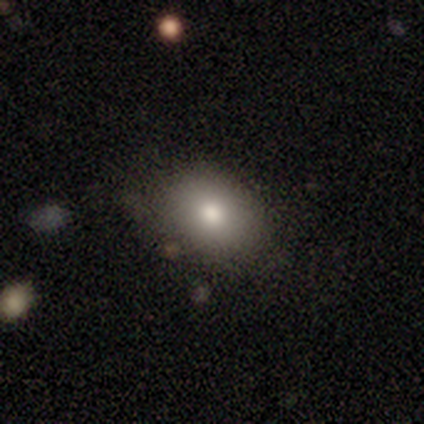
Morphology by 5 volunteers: smooth-or-featured: smooth: 80% | star or artifact: 20% | featured or disk: 0%
  how-rounded: in between: 75% | round: 25% | cigar-shaped: 0%
  merging: none: 75% | minor disturbance: 25% | major disturbance: 0% | merger: 0%